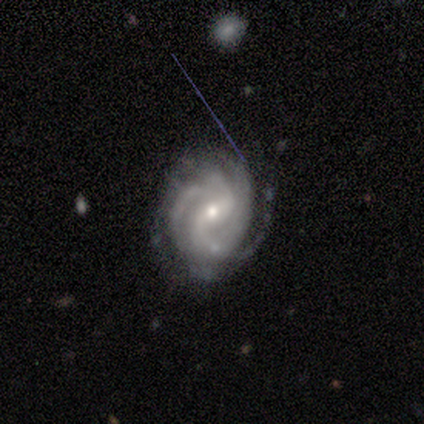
smooth_or_featured: featured or disk (p=1.00)
disk_edge_on: no (p=1.00)
bar: weak (p=0.75) [alt: no p=0.25]
has_spiral_arms: yes (p=1.00)
spiral_winding: tight (p=0.75) [alt: loose p=0.25]
spiral_arm_count: 2 (p=0.50) [tied with: 3 p=0.50]
bulge_size: small (p=1.00)
merging: none (p=1.00)